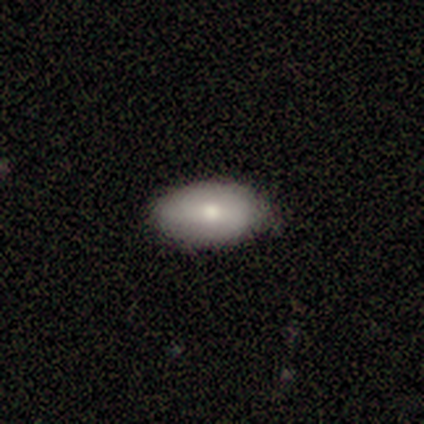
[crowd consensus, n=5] This is clearly a smooth galaxy (80%). How rounded: likely in between (75%). Merging: likely none (60%).